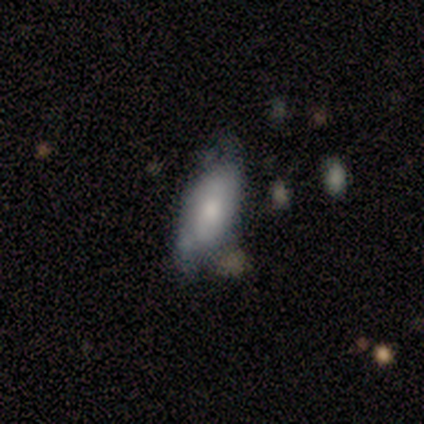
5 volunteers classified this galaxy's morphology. featured or disk 60%, smooth 40%, star or artifact 0%. Down the decision tree: edge-on disk — no (100%); bar — no (100%); spiral arms — no (67%); bulge size — large (67%); merging — none (80%).